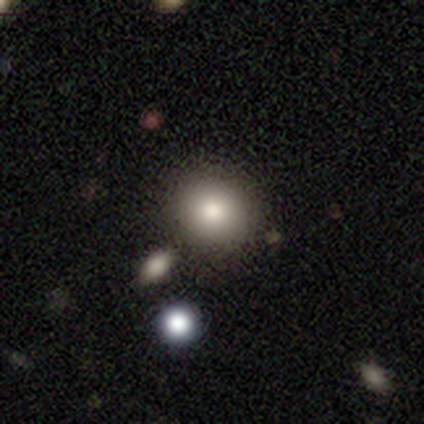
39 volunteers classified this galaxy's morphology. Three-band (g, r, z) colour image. It shows a smooth galaxy with no disk features (79%) that is round (87%). Merging: none (78%).